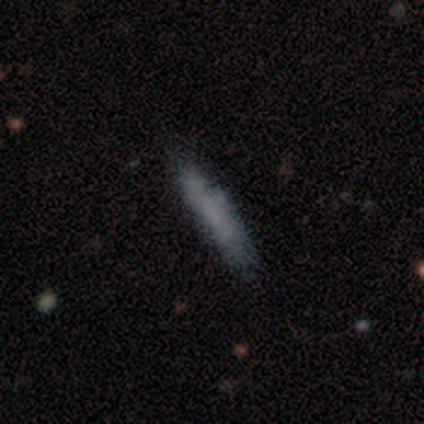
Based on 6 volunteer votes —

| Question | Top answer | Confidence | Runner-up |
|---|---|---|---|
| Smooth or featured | smooth | 100% | — |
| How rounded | cigar-shaped | 100% | — |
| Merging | minor disturbance | 50% | merger (33%) |